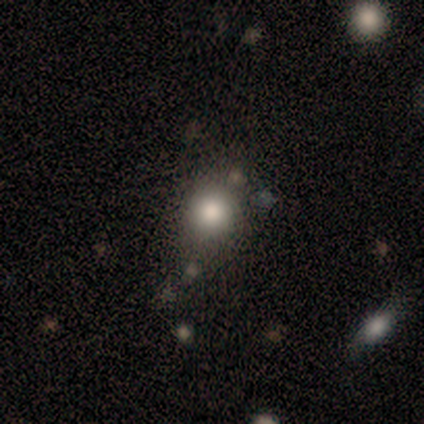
A smooth galaxy with no disk features (62%) that is round (100%). Merging: none (83%).